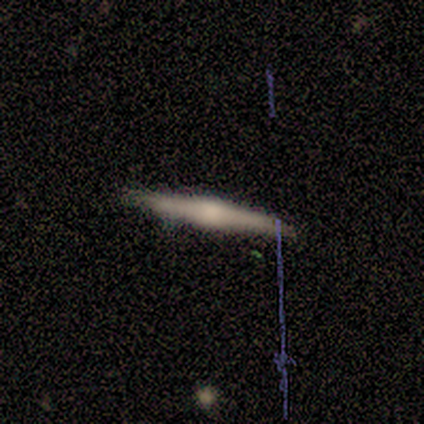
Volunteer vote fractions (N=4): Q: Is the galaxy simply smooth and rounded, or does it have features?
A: smooth — 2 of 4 (50%, tied with featured or disk).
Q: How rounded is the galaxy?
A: cigar-shaped — 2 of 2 (100%).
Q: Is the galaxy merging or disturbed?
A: none — 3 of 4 (75%).